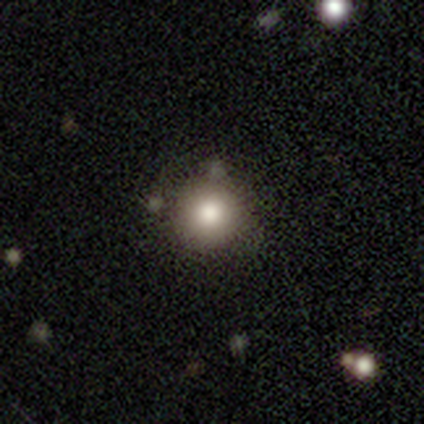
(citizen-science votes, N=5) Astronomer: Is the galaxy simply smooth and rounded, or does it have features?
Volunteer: smooth — 60% (runner-up: star or artifact, 40%).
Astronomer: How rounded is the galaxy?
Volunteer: round — 100%.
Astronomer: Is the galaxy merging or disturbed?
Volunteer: none — 100%.